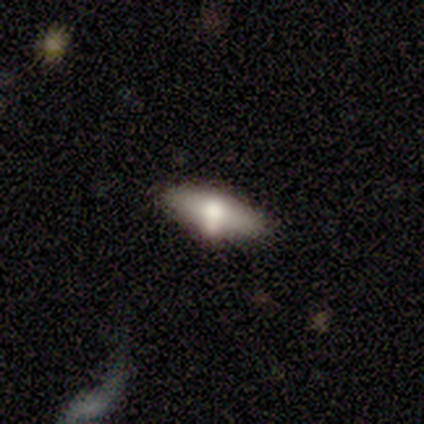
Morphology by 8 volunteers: A smooth galaxy with no disk features (75%) that is in between round and cigar-shaped (50%, tied with cigar-shaped). Merging: none (62%).